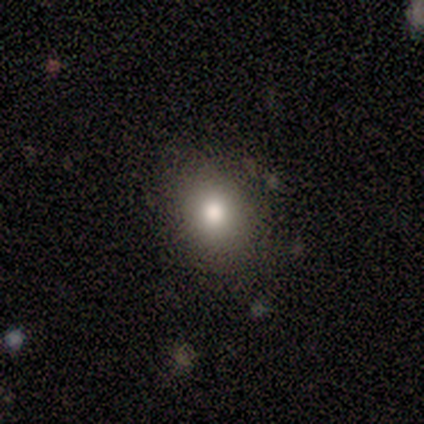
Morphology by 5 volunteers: smooth_or_featured: smooth (p=1.00)
how_rounded: in between (p=0.60) [alt: round p=0.20]
merging: none (p=0.60) [alt: minor disturbance p=0.40]